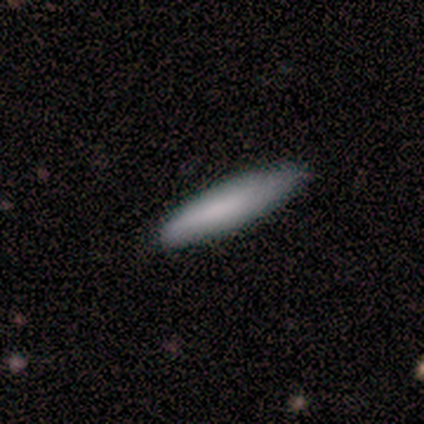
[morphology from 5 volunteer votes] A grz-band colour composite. It shows a smooth galaxy with no disk features (80%) that is cigar-shaped (100%). Merging: none (75%).